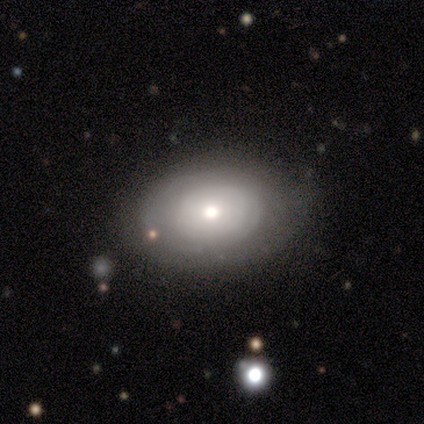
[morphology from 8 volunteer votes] A smooth galaxy with no disk features (50%, tied with featured or disk) that is round (50%, tied with in between). Merging: none (100%).